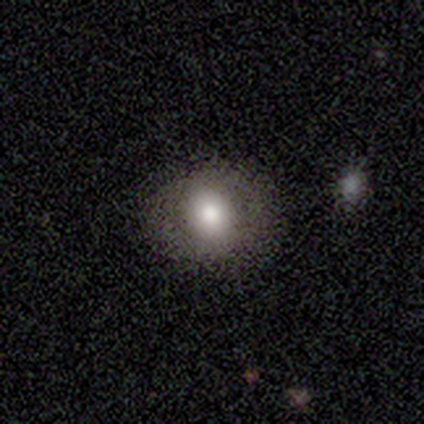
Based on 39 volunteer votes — Morphology: type=smooth (64%); roundness=round (72%); merging=none (76%).